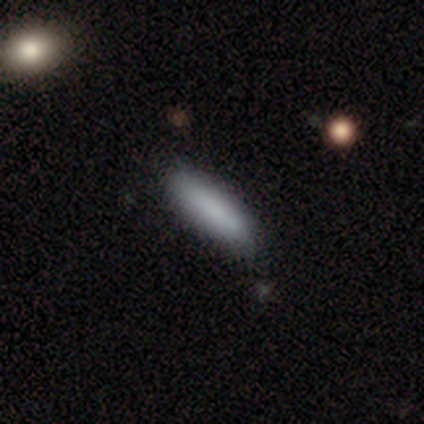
Volunteers were most divided on "smooth or featured": smooth: 60%, featured or disk: 40%, star or artifact: 0%. More confident: how rounded — in between (67%); merging — none (60%).